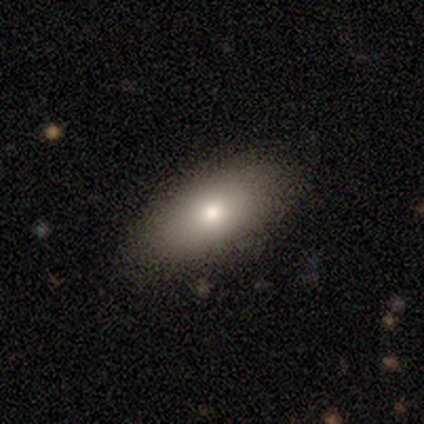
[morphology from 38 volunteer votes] A smooth galaxy with no disk features (76%) that is in between round and cigar-shaped (79%). Merging: none (95%).